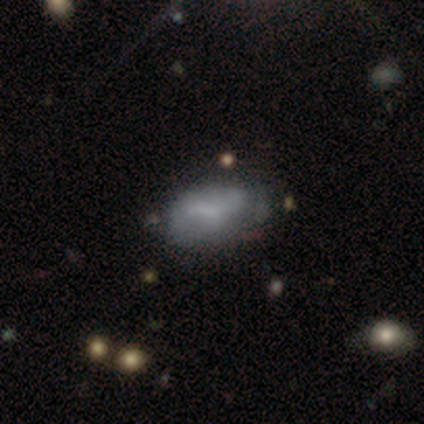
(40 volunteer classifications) smooth-or-featured: smooth: 52% | featured or disk: 45% | star or artifact: 2%
  how-rounded: in between: 95% | cigar-shaped: 5% | round: 0%
  merging: none: 33% | minor disturbance: 26% | major disturbance: 15% | merger: 13%